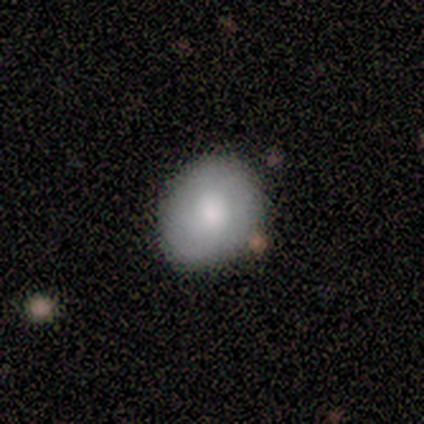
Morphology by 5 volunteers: A smooth galaxy with no disk features (100%) that is round (100%). Merging: none (80%).